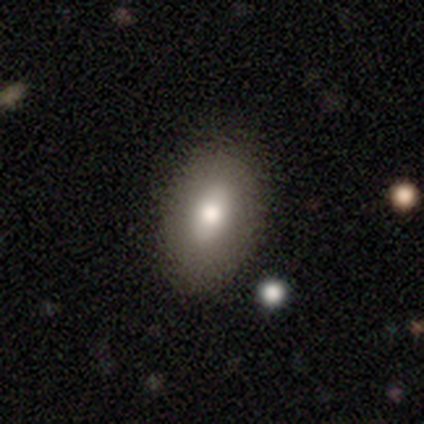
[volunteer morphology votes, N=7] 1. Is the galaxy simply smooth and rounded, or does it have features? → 57% featured or disk, 43% smooth, 0% star or artifact.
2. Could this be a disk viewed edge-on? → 100% no, 0% yes.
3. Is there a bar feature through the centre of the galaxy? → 75% no, 25% weak, 0% strong.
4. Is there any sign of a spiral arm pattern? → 100% no, 0% yes.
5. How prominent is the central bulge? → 75% moderate, 25% small, 0% dominant, 0% large, 0% none.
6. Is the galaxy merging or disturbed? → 71% none, 29% minor disturbance, 0% major disturbance, 0% merger.